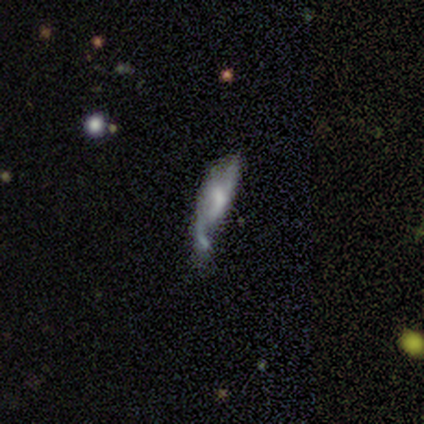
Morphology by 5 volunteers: Overall: featured or disk (60%; smooth 40%). Edge-on disk: no (100%). Bar: weak (67%; no 33%). Spiral arms: no (100%). Bulge size: small (67%; moderate 33%). Merging: major disturbance (60%; none 20%).